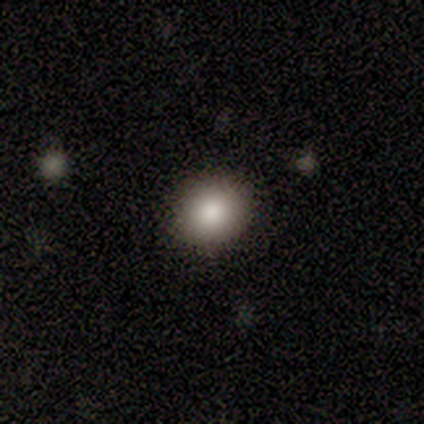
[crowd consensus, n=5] Morphology: type=smooth (60%); roundness=round (100%); merging=none (100%).